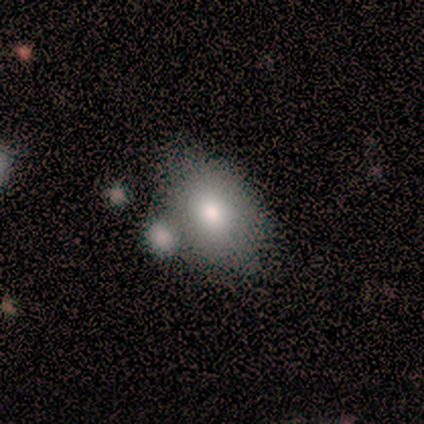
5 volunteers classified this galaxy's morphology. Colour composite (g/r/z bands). It shows a smooth galaxy with no disk features (100%) that is in between round and cigar-shaped (60%). Merging: none (60%).